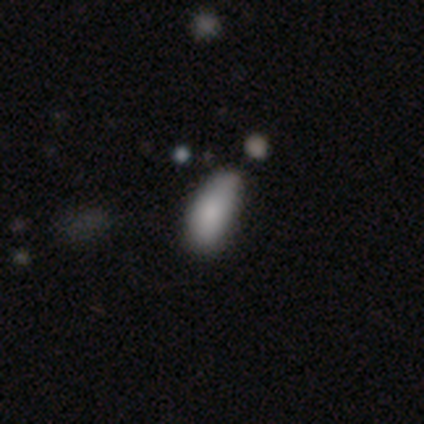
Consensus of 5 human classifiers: A smooth galaxy with no disk features (100%) that is in between round and cigar-shaped (100%). Merging: minor disturbance (80%).